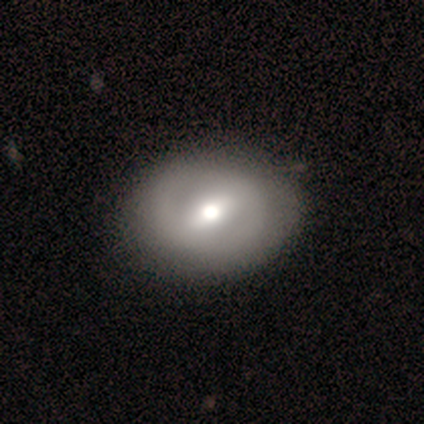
Q: Smooth or featured?
A: featured or disk (60%); runner-up: smooth (40%)
Q: Edge-on disk?
A: no (100%)
Q: Bar?
A: strong (67%); runner-up: weak (33%)
Q: Spiral arms?
A: no (100%)
Q: Bulge size?
A: moderate (100%)
Q: Merging?
A: none (100%)